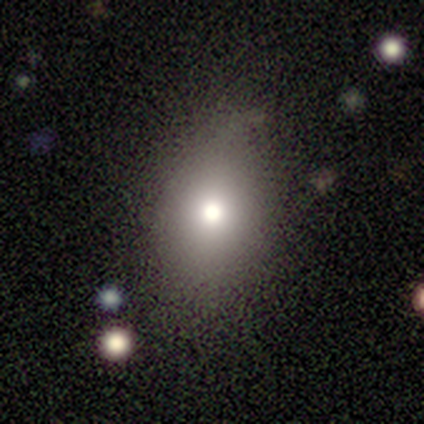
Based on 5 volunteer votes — smooth-or-featured: smooth: 80% | featured or disk: 20% | star or artifact: 0%
  how-rounded: round: 75% | in between: 25% | cigar-shaped: 0%
  merging: minor disturbance: 40% (tied) | major disturbance: 40% (tied) | none: 20% | merger: 0%